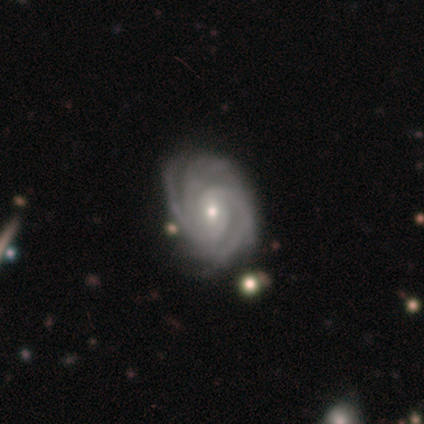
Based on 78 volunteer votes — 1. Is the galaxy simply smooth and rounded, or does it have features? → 96% featured or disk, 4% star or artifact, 0% smooth.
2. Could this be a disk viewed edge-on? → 100% no, 0% yes.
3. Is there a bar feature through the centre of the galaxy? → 45% no, 44% weak, 11% strong.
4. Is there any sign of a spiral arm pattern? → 99% yes, 1% no.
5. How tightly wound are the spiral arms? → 78% tight, 22% medium, 0% loose.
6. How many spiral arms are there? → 47% 3, 24% 4, 14% 2, 14% can't tell, 1% more than 4, 0% 1.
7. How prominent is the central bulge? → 55% small, 44% moderate, 1% none, 0% dominant, 0% large.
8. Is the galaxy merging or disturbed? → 37% none, 11% minor disturbance, 4% merger, 0% major disturbance.